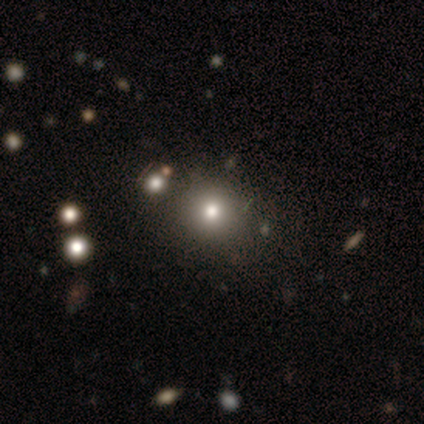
smooth-or-featured: smooth: 80% | featured or disk: 20% | star or artifact: 0%
  how-rounded: round: 50% (tied) | in between: 50% (tied) | cigar-shaped: 0%
  merging: none: 60% | minor disturbance: 20% | merger: 20% | major disturbance: 0%